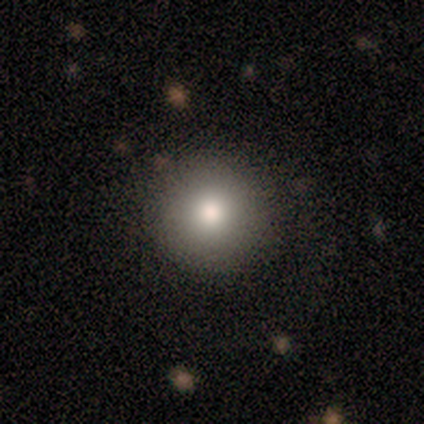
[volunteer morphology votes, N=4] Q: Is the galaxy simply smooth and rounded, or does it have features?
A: smooth — 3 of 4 (75%).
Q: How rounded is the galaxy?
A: round — 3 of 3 (100%).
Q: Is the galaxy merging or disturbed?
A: none — 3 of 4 (75%).